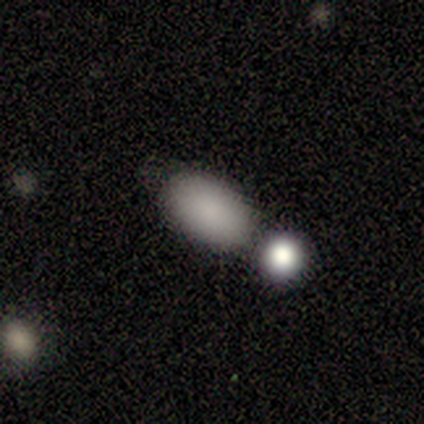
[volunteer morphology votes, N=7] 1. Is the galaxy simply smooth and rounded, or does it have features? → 100% smooth, 0% featured or disk, 0% star or artifact.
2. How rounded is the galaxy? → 100% in between, 0% round, 0% cigar-shaped.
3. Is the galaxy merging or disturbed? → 86% none, 14% merger, 0% minor disturbance, 0% major disturbance.